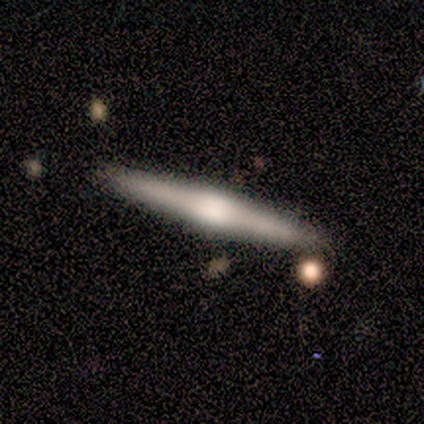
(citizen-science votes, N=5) Morphology: type=featured or disk (80%); edge-on=yes (100%); edge-on bulge=rounded (75%); merging=none (100%).